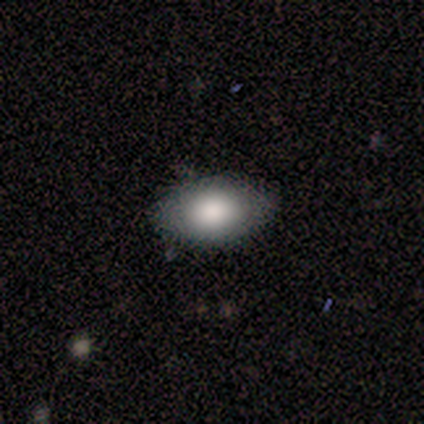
This is clearly a smooth galaxy (80%). How rounded: clearly in between (100%). Merging: clearly none (100%).